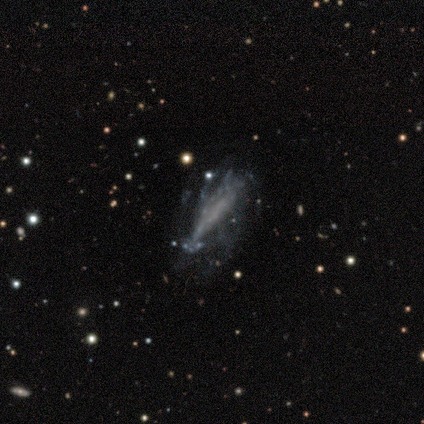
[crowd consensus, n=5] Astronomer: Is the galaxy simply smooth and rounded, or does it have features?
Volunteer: smooth — 60% (runner-up: featured or disk, 40%).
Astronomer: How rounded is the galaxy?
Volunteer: cigar-shaped — 67%.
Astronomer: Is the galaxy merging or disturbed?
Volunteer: major disturbance — 60%.